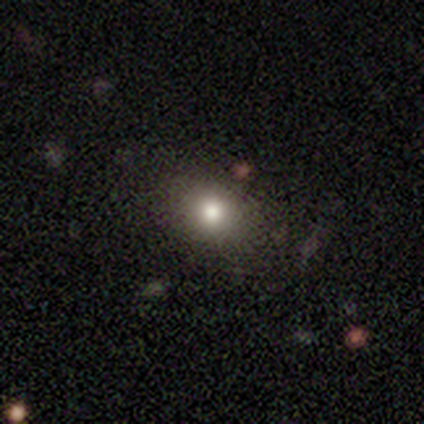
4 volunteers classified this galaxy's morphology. This is possibly a star or artifact rather than a galaxy (50%).